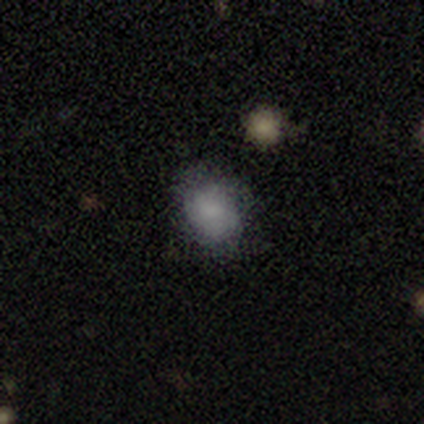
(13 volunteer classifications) smooth_or_featured: smooth (p=0.85) [alt: featured or disk p=0.08]
how_rounded: in between (p=0.55) [alt: round p=0.45]
merging: none (p=0.83) [alt: merger p=0.17]